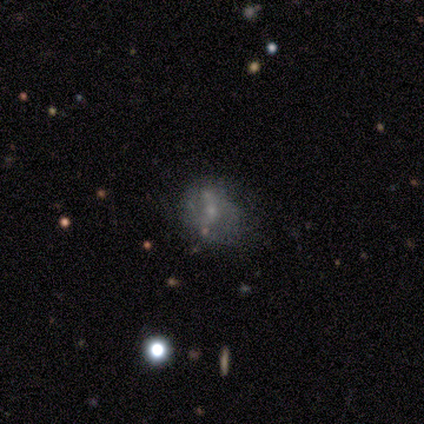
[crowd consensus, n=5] Q: Smooth or featured?
A: featured or disk (60%); runner-up: smooth (40%)
Q: Edge-on disk?
A: no (100%)
Q: Bar?
A: weak (67%); runner-up: no (33%)
Q: Spiral arms?
A: no (100%)
Q: Bulge size?
A: small (100%)
Q: Merging?
A: none (60%); runner-up: minor disturbance (20%)